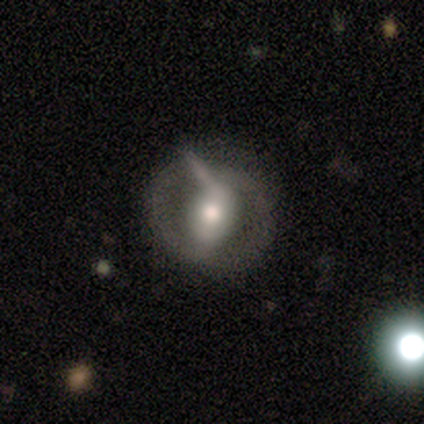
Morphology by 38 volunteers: Smooth or featured?
  - featured or disk: 74% *
  - smooth: 24%
  - star or artifact: 3%
Edge-on disk?
  - no: 100% *
  - yes: 0%
Bar?
  - strong: 39% *
  - no: 32%
  - weak: 29%
Spiral arms?
  - no: 68% *
  - yes: 32%
Bulge size?
  - moderate: 61% *
  - large: 32%
  - small: 7%
  - dominant: 0%
  - none: 0%
Merging?
  - none: 54% *
  - minor disturbance: 19%
  - major disturbance: 16%
  - merger: 11%